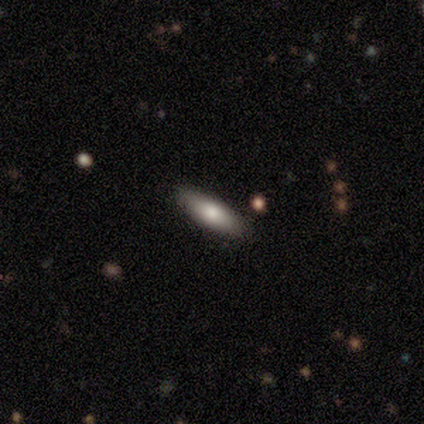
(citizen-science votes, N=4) A smooth galaxy with no disk features (50%, tied with featured or disk) that is in between round and cigar-shaped (100%).

Vote fractions:
- Smooth or featured? smooth: 50% (tied) / featured or disk: 50% (tied) / star or artifact: 0%
- How rounded? in between: 100% / round: 0% / cigar-shaped: 0%
- Merging? none: 75% / minor disturbance: 25% / major disturbance: 0% / merger: 0%